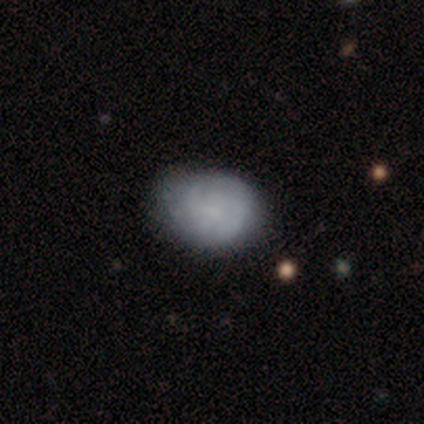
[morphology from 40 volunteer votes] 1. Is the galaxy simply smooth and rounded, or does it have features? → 48% smooth, 42% featured or disk, 10% star or artifact.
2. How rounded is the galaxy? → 63% round, 37% in between, 0% cigar-shaped.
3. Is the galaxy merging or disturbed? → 47% none, 17% minor disturbance, 6% major disturbance, 0% merger.